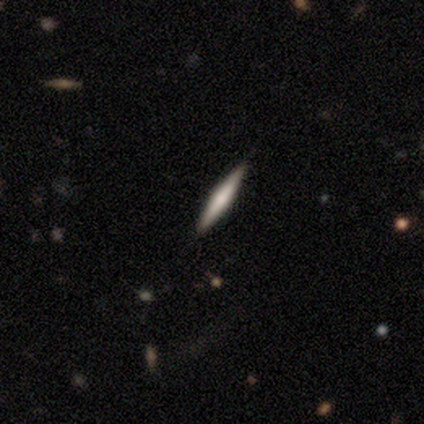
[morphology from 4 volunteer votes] type=smooth (100%); roundness=cigar-shaped (100%); merging=none (75%).